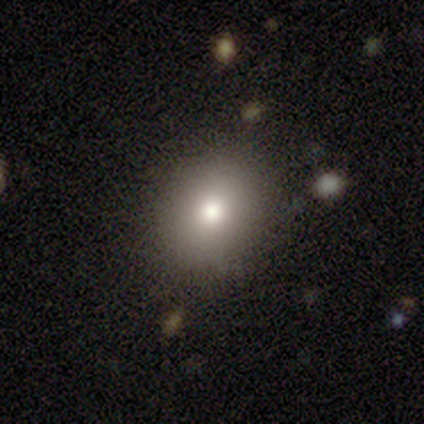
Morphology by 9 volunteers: Smooth or featured?
  - smooth: 56% *
  - star or artifact: 33%
  - featured or disk: 11%
How rounded?
  - round: 80% *
  - in between: 20%
  - cigar-shaped: 0%
Merging?
  - none: 100% *
  - minor disturbance: 0%
  - major disturbance: 0%
  - merger: 0%